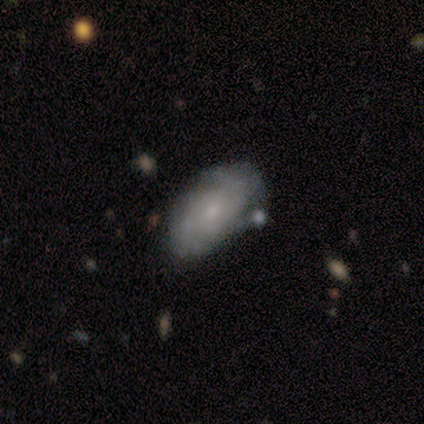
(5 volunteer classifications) Morphology: type=smooth (60%); roundness=in between (100%); merging=minor disturbance (60%).